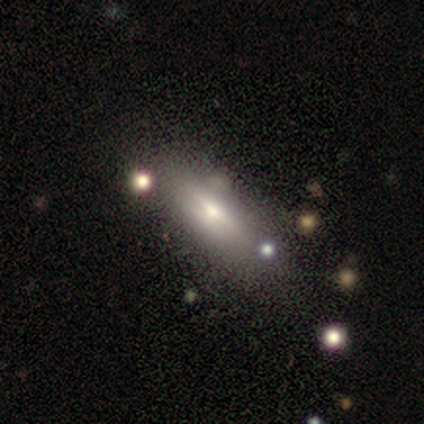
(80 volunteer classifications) Smooth or featured: featured or disk — 57% (smooth — 34%)
Edge-on disk: yes — 98% (no — 2%)
Edge-on bulge: rounded — 80% (boxy — 11%)
Merging: none — 33% (minor disturbance — 8%)